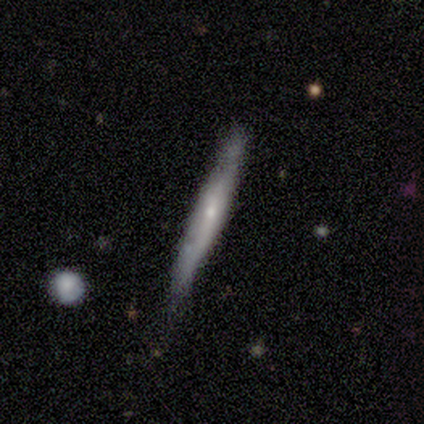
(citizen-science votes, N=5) A featured or disk galaxy (80%) viewed edge-on (100%) with no central bulge (50%, tied with rounded).

Vote fractions:
- Smooth or featured? featured or disk: 80% / smooth: 20% / star or artifact: 0%
- Edge-on disk? yes: 100% / no: 0%
- Edge-on bulge? none: 50% (tied) / rounded: 50% (tied) / boxy: 0%
- Merging? none: 80% / merger: 20% / minor disturbance: 0% / major disturbance: 0%